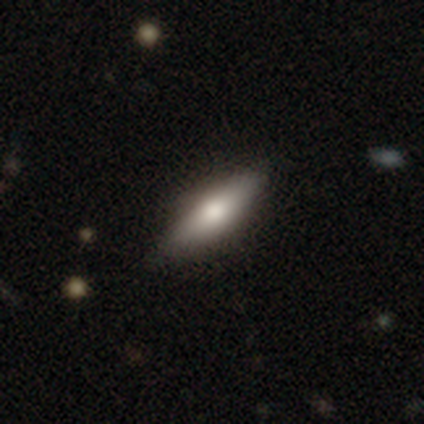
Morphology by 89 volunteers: This is likely a smooth galaxy (64%). How rounded: likely cigar-shaped (63%). Merging: clearly none (82%).